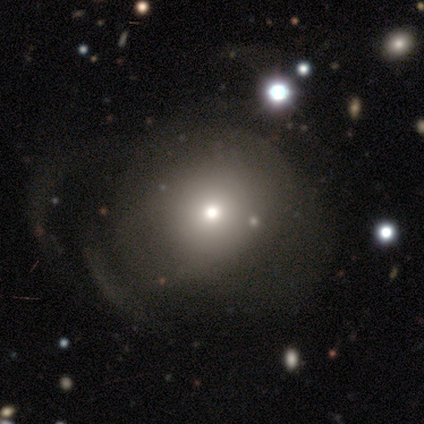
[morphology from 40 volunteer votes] smooth 62%, featured or disk 28%, star or artifact 10%. Down the decision tree: how rounded — round (84%); merging — major disturbance (36%).